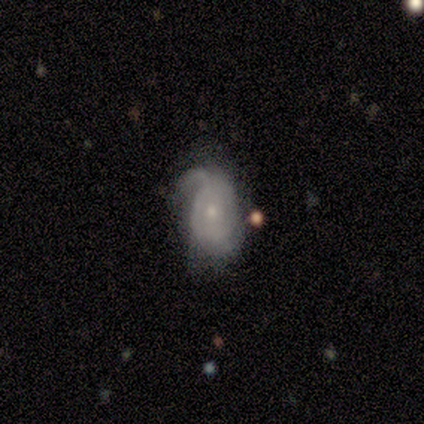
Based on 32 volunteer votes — Morphology: type=featured or disk (69%); edge-on=no (100%); bar=no (91%); spiral arms=yes (73%); winding=tight (50%); arm count=2 (50%); bulge=small (82%); merging=minor disturbance (43%).